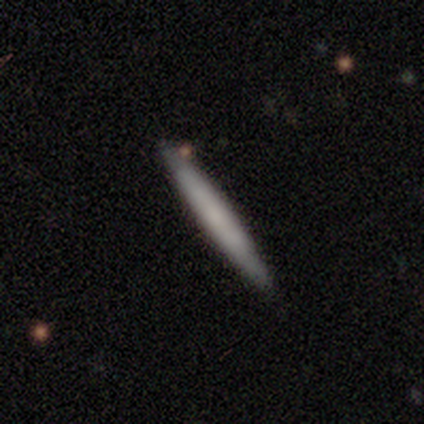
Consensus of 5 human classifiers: smooth-or-featured: smooth: 60% | featured or disk: 40% | star or artifact: 0%
  how-rounded: cigar-shaped: 100% | round: 0% | in between: 0%
  merging: none: 80% | minor disturbance: 20% | major disturbance: 0% | merger: 0%